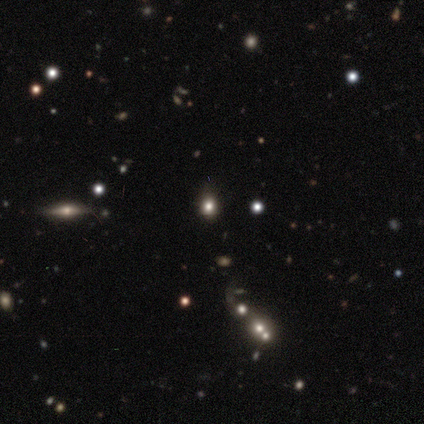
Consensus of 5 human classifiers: This is likely a smooth galaxy (60%). How rounded: clearly round (100%). Merging: clearly none (100%).